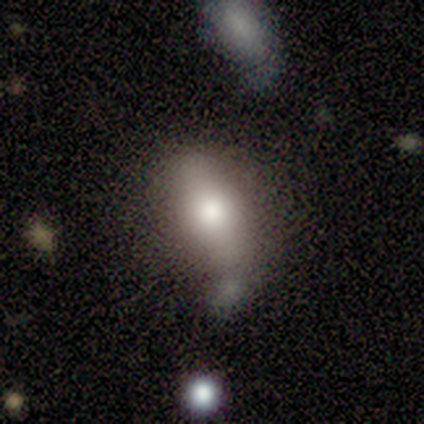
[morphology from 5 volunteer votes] Smooth or featured? 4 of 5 (80%) said smooth. How rounded? 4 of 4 (100%) said in between. Merging? 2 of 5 (40%, tied with merger) said minor disturbance.